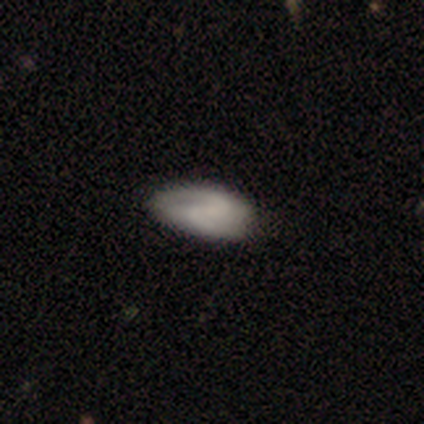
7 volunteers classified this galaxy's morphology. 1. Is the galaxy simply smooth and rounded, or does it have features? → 57% smooth, 43% featured or disk, 0% star or artifact.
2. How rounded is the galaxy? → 100% in between, 0% round, 0% cigar-shaped.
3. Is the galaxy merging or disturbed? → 57% none, 43% minor disturbance, 0% major disturbance, 0% merger.